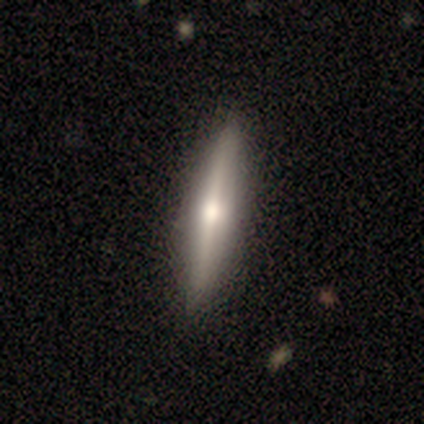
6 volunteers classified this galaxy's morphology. smooth_or_featured: smooth (p=0.50) [tied with: featured or disk p=0.50]
how_rounded: cigar-shaped (p=1.00)
merging: none (p=1.00)